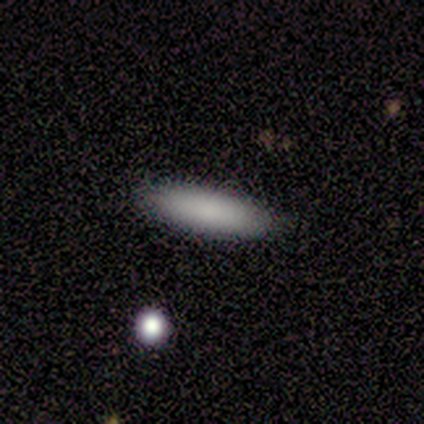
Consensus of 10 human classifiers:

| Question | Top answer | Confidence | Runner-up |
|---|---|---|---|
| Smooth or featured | smooth | 80% | featured or disk (20%) |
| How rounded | in between | 62% | cigar-shaped (38%) |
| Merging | none | 100% | — |